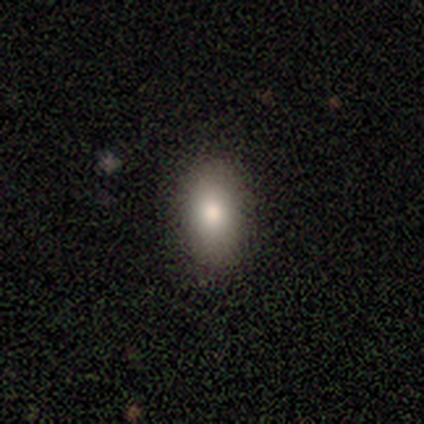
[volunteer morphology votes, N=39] This is clearly a smooth galaxy (90%). How rounded: clearly in between (80%). Merging: clearly none (89%).